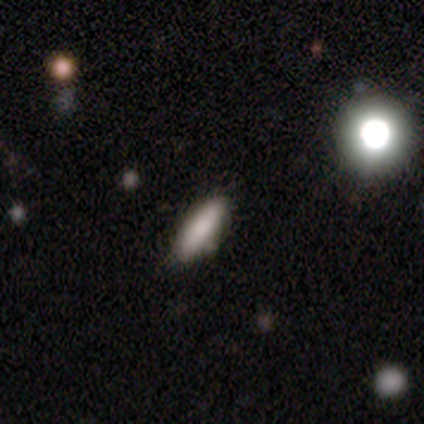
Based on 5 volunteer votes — Smooth or featured? smooth (100%)
How rounded? in between (60%)
Merging? none (80%)